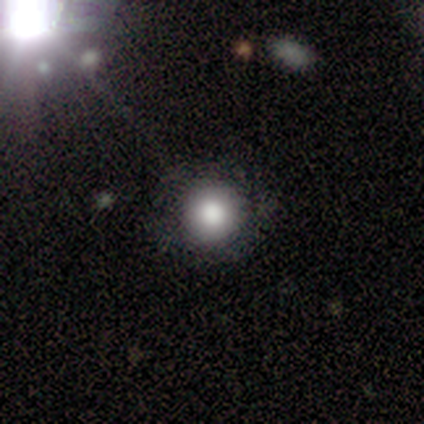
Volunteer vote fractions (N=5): Volunteers were most divided on "how rounded": round: 80%, in between: 20%, cigar-shaped: 0%. More confident: smooth or featured — smooth (100%); merging — none (80%).